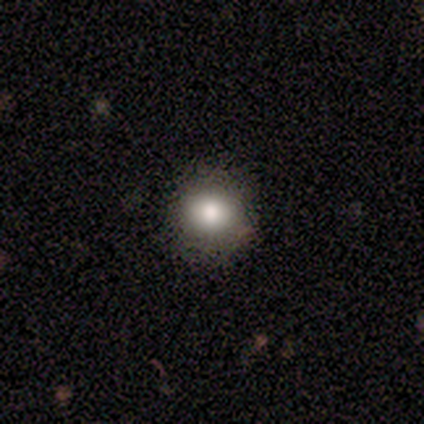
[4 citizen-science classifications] Smooth or featured? 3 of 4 (75%) said smooth. How rounded? 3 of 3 (100%) said round. Merging? 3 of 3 (100%) said none.